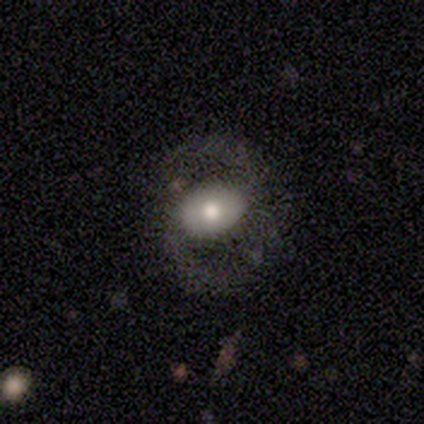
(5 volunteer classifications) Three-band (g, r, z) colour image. It shows a featured or disk galaxy (60%) with no bar (67%), 2 (100%) loose (100%) spiral arms (67%) and a moderate central bulge (67%). Merging: none (40%, tied with major disturbance).